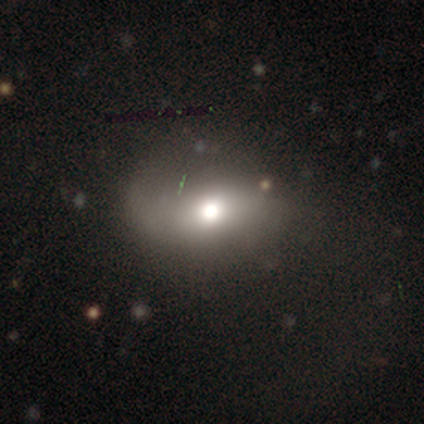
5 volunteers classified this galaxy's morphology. This is clearly a smooth galaxy (80%). How rounded: possibly round (50%, tied with in between). Merging: marginally minor disturbance (40%, tied with major disturbance).